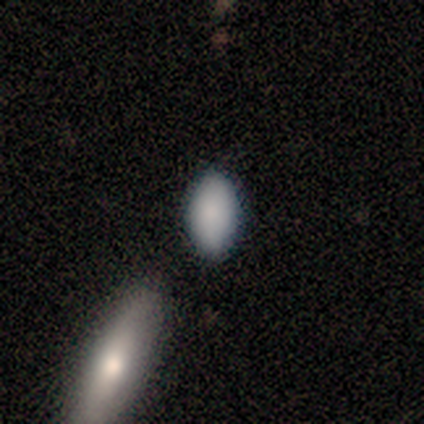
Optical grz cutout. It shows a smooth galaxy with no disk features (60%) that is in between round and cigar-shaped (100%). Merging: none (80%).